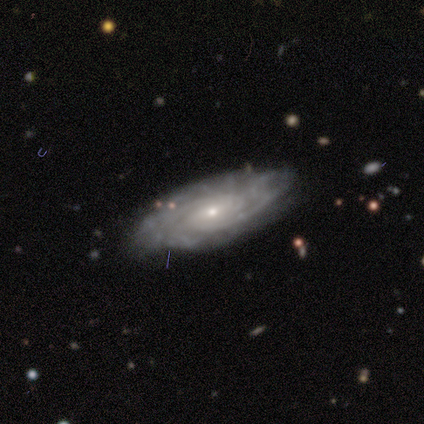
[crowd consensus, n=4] Smooth or featured?
  - featured or disk: 100% *
  - smooth: 0%
  - star or artifact: 0%
Edge-on disk?
  - no: 100% *
  - yes: 0%
Bar?
  - no: 100% *
  - strong: 0%
  - weak: 0%
Spiral arms?
  - yes: 100% *
  - no: 0%
Spiral winding?
  - tight: 50% *
  - medium: 25%
  - loose: 25%
Spiral arm count?
  - can't tell: 75% *
  - 2: 25%
  - 1: 0%
  - 3: 0%
  - 4: 0%
  - more than 4: 0%
Bulge size?
  - moderate: 50% * (tied)
  - small: 50% * (tied)
  - dominant: 0%
  - large: 0%
  - none: 0%
Merging?
  - none: 100% *
  - minor disturbance: 0%
  - major disturbance: 0%
  - merger: 0%